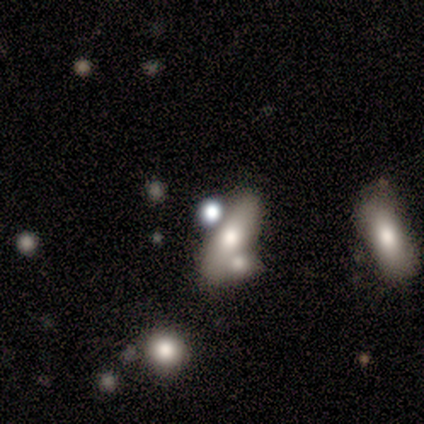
This is likely a star or artifact rather than a galaxy (60%).